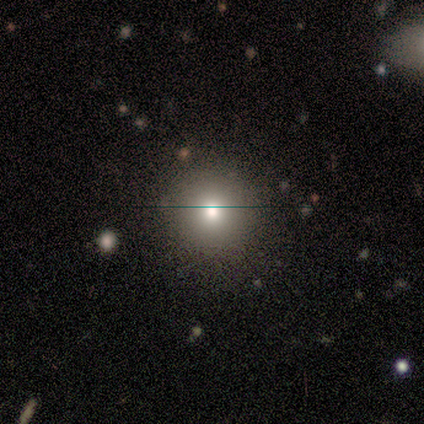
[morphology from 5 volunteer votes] Q: Smooth or featured?
A: smooth (60%); runner-up: featured or disk (20%)
Q: How rounded?
A: round (100%)
Q: Merging?
A: none (100%)